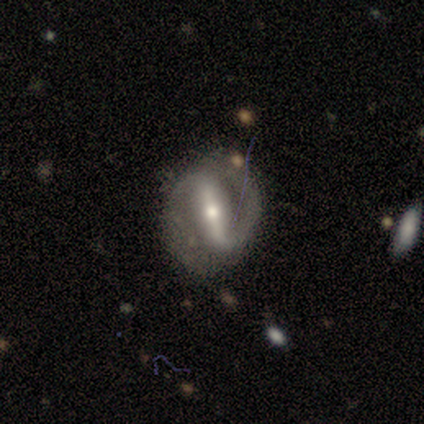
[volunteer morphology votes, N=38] This appears to be a featured or disk galaxy (92%) with a strong bar (91%), 2 (93%) medium (59%) spiral arms (91%) and a small central bulge (47%). Merging: none (76%).